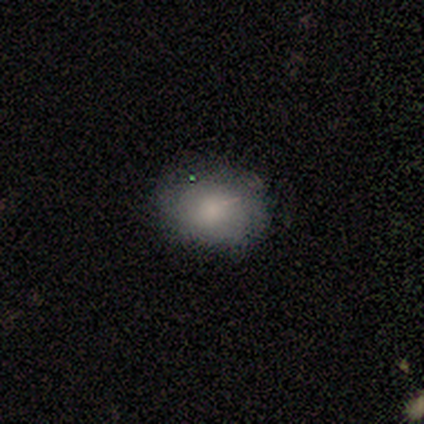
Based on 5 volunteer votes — A smooth galaxy with no disk features (80%) that is round (50%, tied with in between). Merging: none (80%).